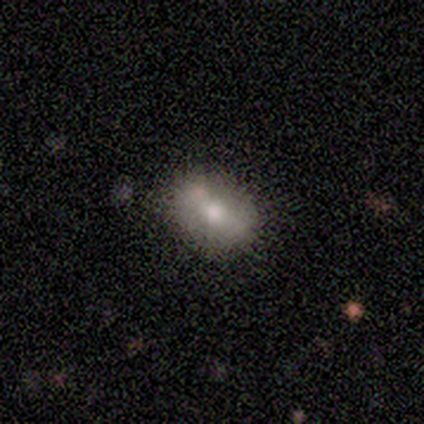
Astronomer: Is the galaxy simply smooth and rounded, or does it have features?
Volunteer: smooth — 80%.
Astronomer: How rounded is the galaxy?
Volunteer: in between — 100%.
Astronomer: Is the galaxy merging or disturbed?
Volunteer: none — 60%.